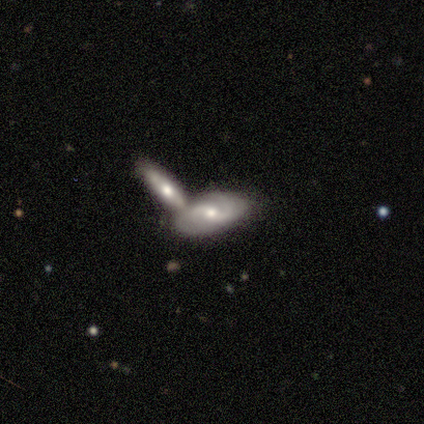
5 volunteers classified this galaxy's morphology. Q: Smooth or featured?
A: featured or disk (80%); runner-up: smooth (20%)
Q: Edge-on disk?
A: no (75%); runner-up: yes (25%)
Q: Bar?
A: weak (67%); runner-up: no (33%)
Q: Spiral arms?
A: yes (100%)
Q: Spiral winding?
A: loose (67%); runner-up: medium (33%)
Q: Spiral arm count?
A: 2 (100%)
Q: Bulge size?
A: large (33%); tied with: moderate (33%); small (33%)
Q: Merging?
A: merger (80%); runner-up: none (20%)